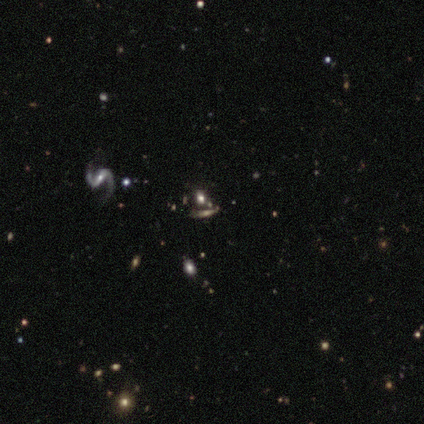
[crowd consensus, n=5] Smooth or featured: star or artifact — 60% (smooth — 20%)